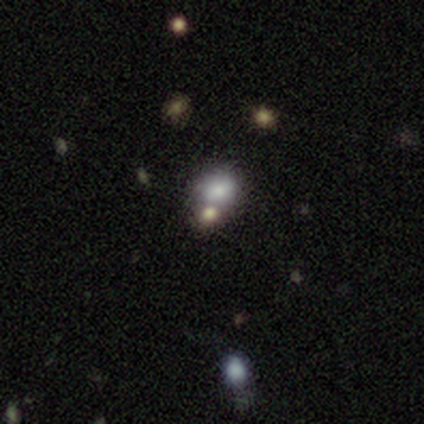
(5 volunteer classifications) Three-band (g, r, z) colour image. It shows a smooth galaxy with no disk features (80%) that is round (75%). Merging: none (80%).